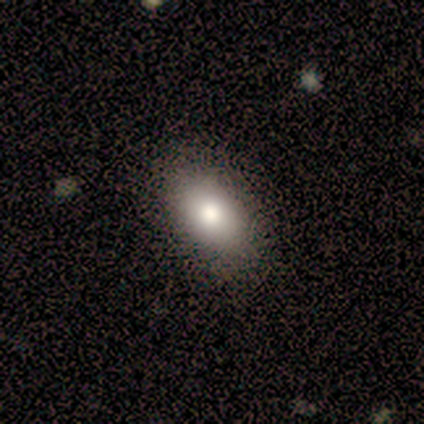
This is clearly a smooth galaxy (100%). How rounded: clearly in between (100%). Merging: clearly none (80%).